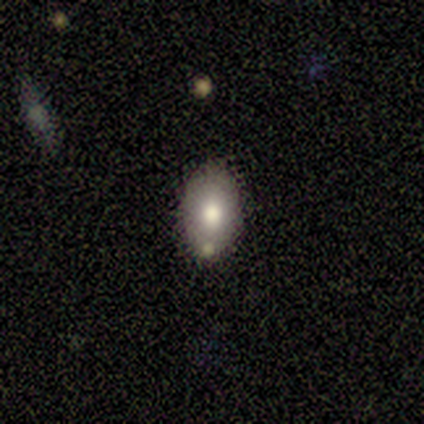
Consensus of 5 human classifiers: smooth 60%, featured or disk 40%, star or artifact 0%. Down the decision tree: how rounded — in between (67%); merging — none (80%).